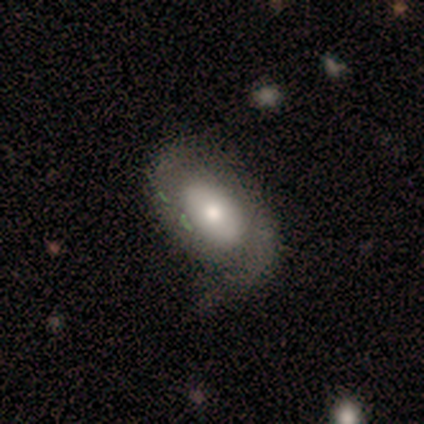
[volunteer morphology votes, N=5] Overall: smooth (60%; featured or disk 40%). How rounded: in between (67%; round 33%). Merging: minor disturbance (60%; none 40%).